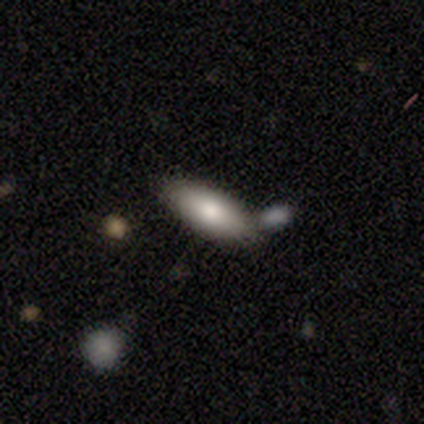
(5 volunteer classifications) A smooth galaxy with no disk features (80%) that is in between round and cigar-shaped (100%).

Vote fractions:
- Smooth or featured? smooth: 80% / featured or disk: 20% / star or artifact: 0%
- How rounded? in between: 100% / round: 0% / cigar-shaped: 0%
- Merging? none: 60% / minor disturbance: 20% / merger: 20% / major disturbance: 0%